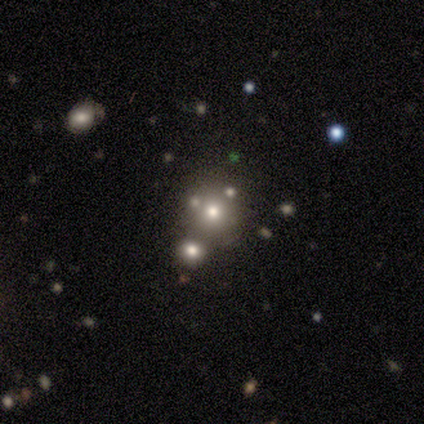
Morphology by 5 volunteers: A smooth galaxy with no disk features (80%) that is round (100%). Merging: none (80%).